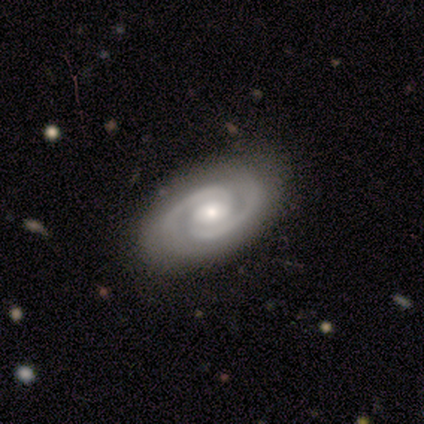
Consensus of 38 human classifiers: Smooth or featured? 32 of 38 (84%) said featured or disk. Edge-on disk? 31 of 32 (97%) said no. Bar? 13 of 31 (42%) said no. Spiral arms? 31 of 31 (100%) said yes. Spiral winding? 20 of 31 (65%) said tight. Spiral arm count? 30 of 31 (97%) said 2. Bulge size? 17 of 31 (55%) said moderate. Merging? 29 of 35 (83%) said none.